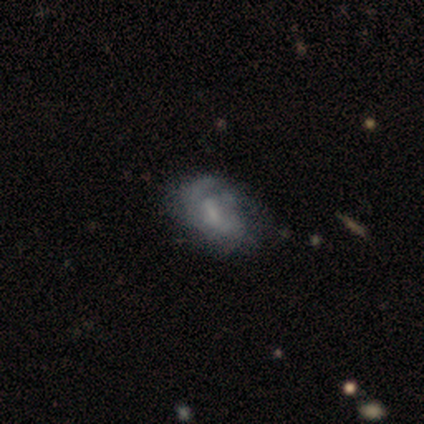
Smooth or featured? 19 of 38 (50%) said featured or disk. Edge-on disk? 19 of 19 (100%) said no. Bar? 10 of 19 (53%) said weak. Spiral arms? 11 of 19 (58%) said yes. Spiral winding? 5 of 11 (45%) said medium. Spiral arm count? 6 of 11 (55%) said can't tell. Bulge size? 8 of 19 (42%) said small. Merging? 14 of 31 (45%) said none.